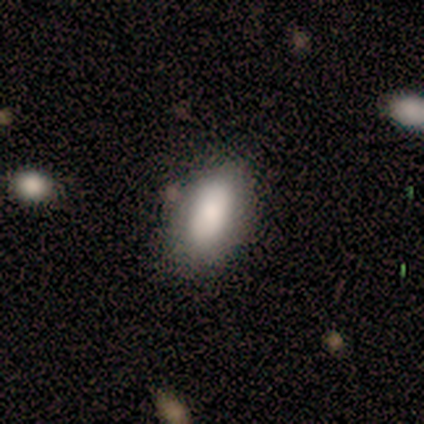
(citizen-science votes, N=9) This is clearly a smooth galaxy (89%). How rounded: clearly in between (100%). Merging: marginally none (44%).